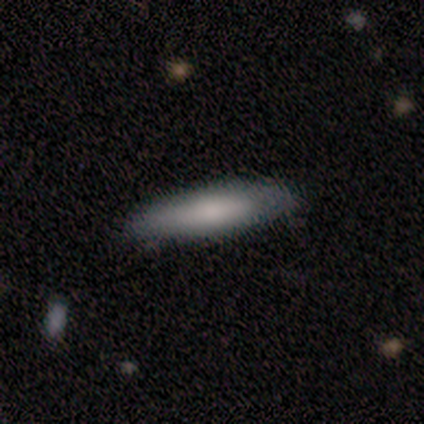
A smooth galaxy with no disk features (67%) that is cigar-shaped (100%). Merging: none (67%).